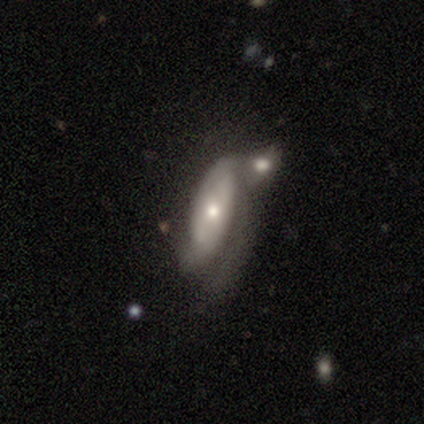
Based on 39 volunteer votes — smooth-or-featured: featured or disk: 64% | smooth: 33% | star or artifact: 3%
  disk-edge-on: no: 92% | yes: 8%
    bar: no: 52% | weak: 39% | strong: 9%
    has-spiral-arms: yes: 78% | no: 22%
      spiral-winding: medium: 50% | tight: 33% | loose: 17%
      spiral-arm-count: 2: 44% | can't tell: 33% | 1: 22% | 3: 0% | 4: 0% | more than 4: 0%
    bulge-size: moderate: 52% | small: 39% | large: 9% | dominant: 0% | none: 0%
  merging: none: 37% | merger: 29% | major disturbance: 21% | minor disturbance: 13%